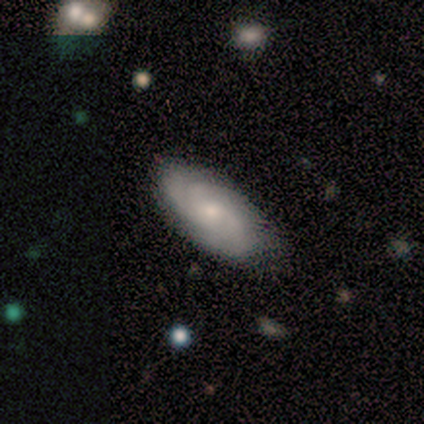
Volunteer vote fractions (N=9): Volunteers were most divided on "smooth or featured": featured or disk: 56%, smooth: 33%, star or artifact: 11%. More confident: edge-on disk — no (100%); spiral arms — yes (100%); merging — none (88%); bar — no (80%); spiral winding — tight (80%); spiral arm count — 2 (80%); bulge size — small (80%).